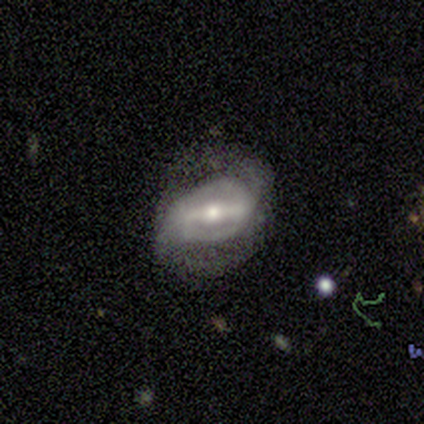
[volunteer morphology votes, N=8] Volunteers were most divided on "merging": none: 50%, minor disturbance: 38%, major disturbance: 12%, merger: 0%. More confident: edge-on disk — no (100%); smooth or featured — featured or disk (88%); bar — strong (86%); spiral arms — yes (86%); spiral arm count — 2 (83%); spiral winding — tight (67%); bulge size — moderate (57%).